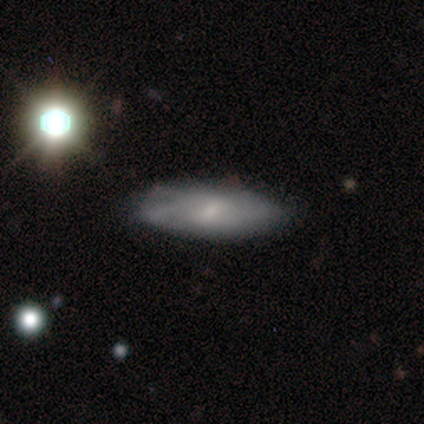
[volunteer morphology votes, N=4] This is possibly a smooth galaxy (50%, tied with featured or disk). How rounded: possibly in between (50%, tied with cigar-shaped). Merging: likely none (75%).